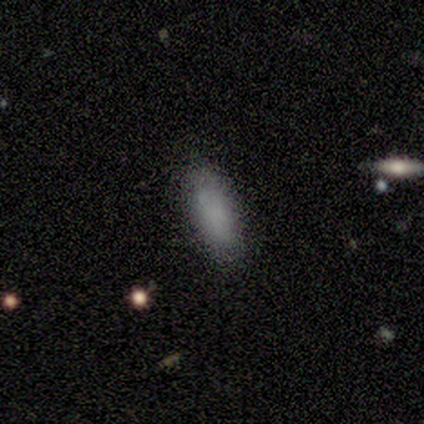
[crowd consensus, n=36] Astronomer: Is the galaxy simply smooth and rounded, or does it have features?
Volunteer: smooth — 89%.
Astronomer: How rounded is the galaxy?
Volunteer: in between — 81%.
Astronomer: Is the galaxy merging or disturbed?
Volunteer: none — 83%.